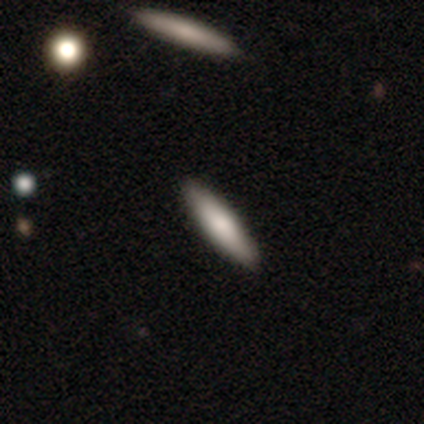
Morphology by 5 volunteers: This is clearly a smooth galaxy (80%). How rounded: likely cigar-shaped (75%). Merging: clearly none (80%).